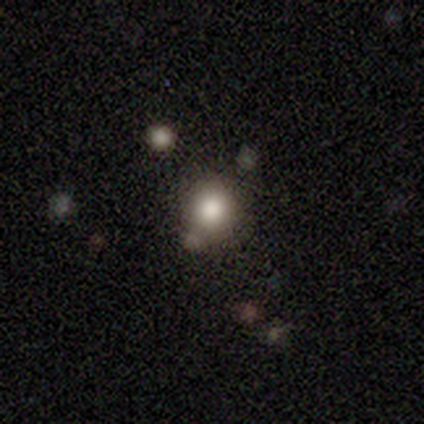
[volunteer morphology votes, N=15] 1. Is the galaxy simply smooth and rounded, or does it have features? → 73% smooth, 13% featured or disk, 13% star or artifact.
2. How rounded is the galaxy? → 100% round, 0% in between, 0% cigar-shaped.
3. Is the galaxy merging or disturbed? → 54% none, 31% minor disturbance, 15% merger, 0% major disturbance.